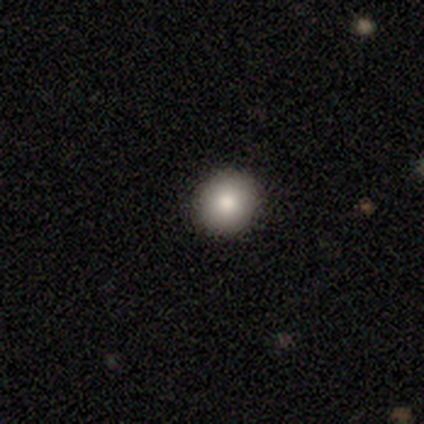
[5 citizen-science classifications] Overall: smooth (100%). How rounded: round (80%). Merging: none (100%).